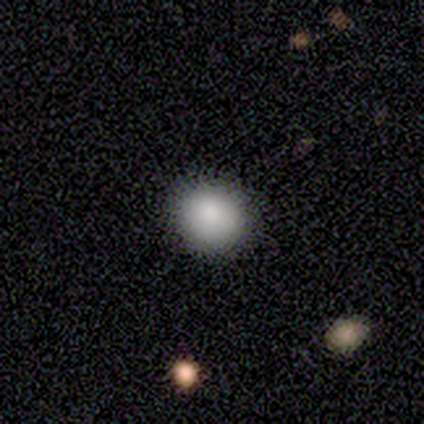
smooth 69%, featured or disk 15%, star or artifact 15%. Down the decision tree: how rounded — round (67%); merging — none (82%).